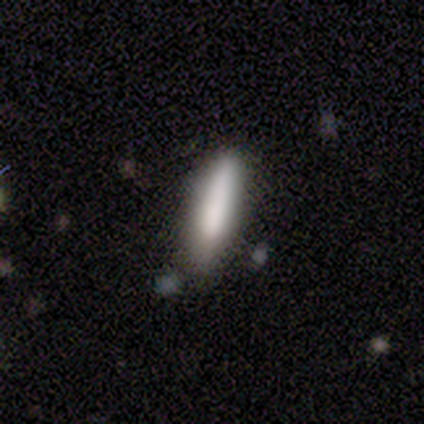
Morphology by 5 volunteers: Overall: smooth (80%). How rounded: cigar-shaped (100%). Merging: none (100%).